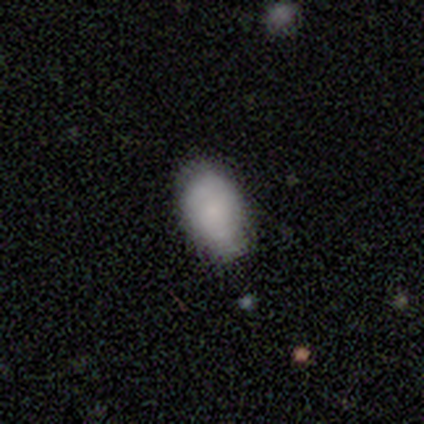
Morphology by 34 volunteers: Smooth or featured?
  - smooth: 79% *
  - star or artifact: 12%
  - featured or disk: 9%
How rounded?
  - in between: 89% *
  - round: 7%
  - cigar-shaped: 4%
Merging?
  - none: 70% *
  - minor disturbance: 27%
  - major disturbance: 3%
  - merger: 0%